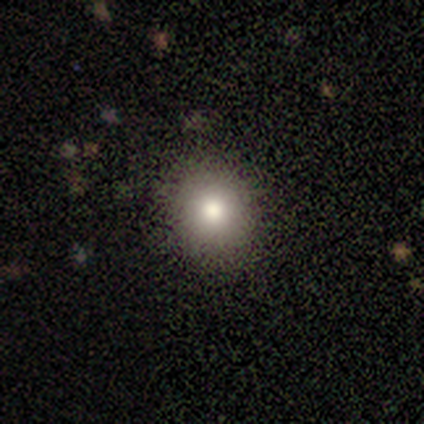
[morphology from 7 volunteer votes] Volunteers were most divided on "smooth or featured": smooth: 71%, featured or disk: 29%, star or artifact: 0%. More confident: how rounded — round (100%); merging — none (100%).